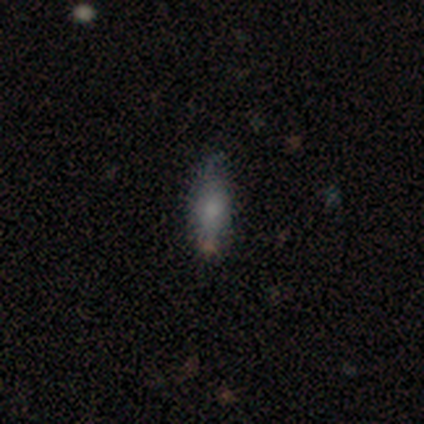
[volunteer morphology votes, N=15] smooth-or-featured: smooth: 73% | featured or disk: 20% | star or artifact: 7%
  how-rounded: in between: 55% | cigar-shaped: 45% | round: 0%
  merging: none: 64% | minor disturbance: 29% | merger: 7% | major disturbance: 0%